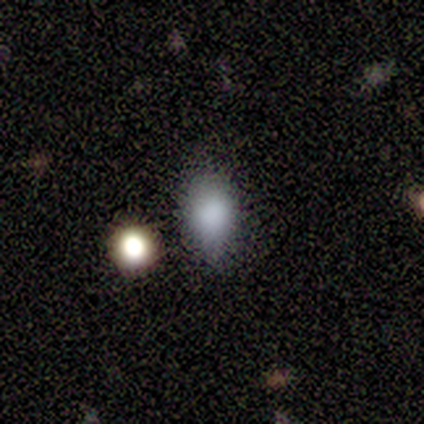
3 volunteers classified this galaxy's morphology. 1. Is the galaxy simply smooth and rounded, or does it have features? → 100% smooth, 0% featured or disk, 0% star or artifact.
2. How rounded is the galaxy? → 67% in between, 33% round, 0% cigar-shaped.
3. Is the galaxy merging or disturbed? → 67% minor disturbance, 33% none, 0% major disturbance, 0% merger.